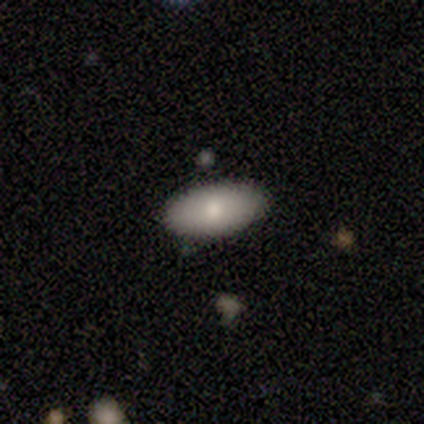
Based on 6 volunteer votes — Smooth or featured? 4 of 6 (67%) said smooth. How rounded? 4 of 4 (100%) said in between. Merging? 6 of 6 (100%) said none.